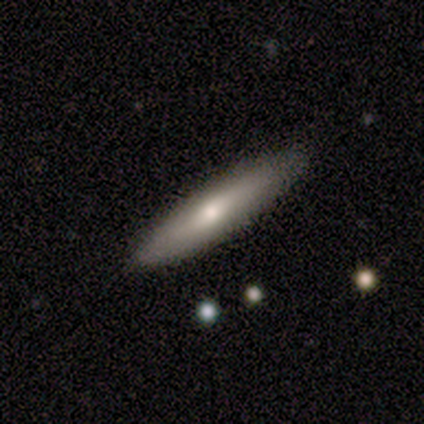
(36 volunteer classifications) Smooth or featured?
  - smooth: 56% *
  - featured or disk: 42%
  - star or artifact: 3%
How rounded?
  - cigar-shaped: 90% *
  - in between: 10%
  - round: 0%
Merging?
  - none: 86% *
  - minor disturbance: 6%
  - major disturbance: 6%
  - merger: 3%